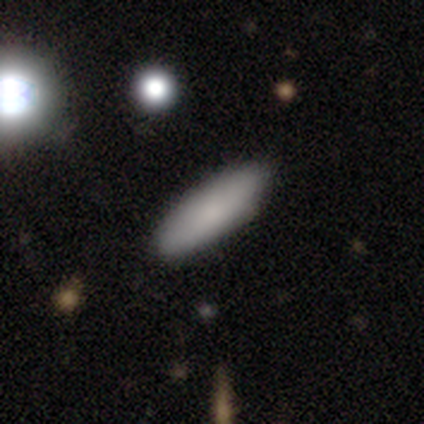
Q: Smooth or featured?
A: smooth (100%)
Q: How rounded?
A: in between (50%); runner-up: round (25%)
Q: Merging?
A: none (100%)